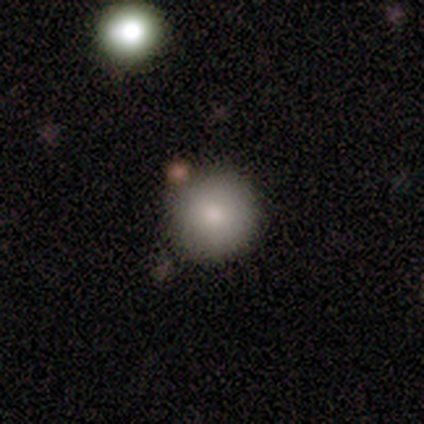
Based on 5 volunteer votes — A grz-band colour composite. It shows a smooth galaxy with no disk features (60%) that is round (100%). Merging: none (50%, tied with minor disturbance).